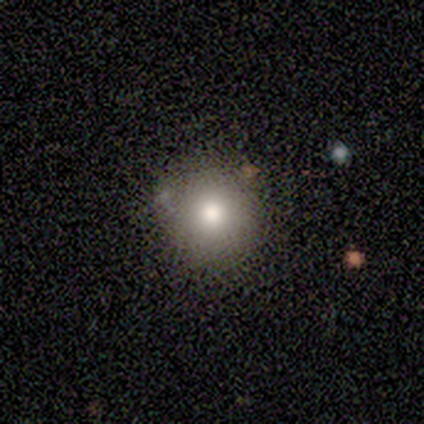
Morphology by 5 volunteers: A smooth galaxy with no disk features (80%) that is round (100%).

Vote fractions:
- Smooth or featured? smooth: 80% / star or artifact: 20% / featured or disk: 0%
- How rounded? round: 100% / in between: 0% / cigar-shaped: 0%
- Merging? none: 50% / minor disturbance: 25% / major disturbance: 25% / merger: 0%